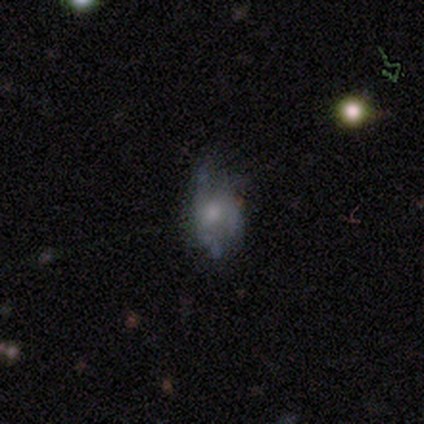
featured or disk 60%, smooth 40%, star or artifact 0%. Down the decision tree: edge-on disk — no (100%); bar — no (100%); spiral arms — no (67%); bulge size — moderate (67%); merging — minor disturbance (60%).